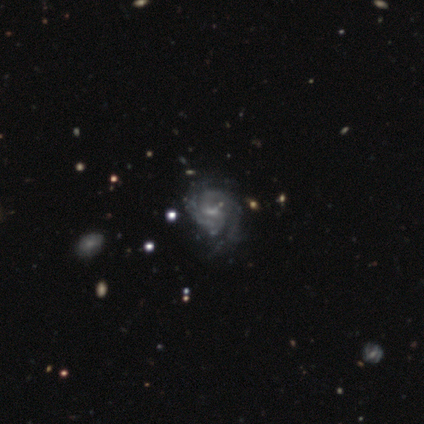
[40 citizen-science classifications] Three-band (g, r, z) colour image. It shows a featured or disk galaxy (85%) with a weak bar (41%), 2 (56%) medium (62%) spiral arms (94%) and a small central bulge (50%). Merging: none (26%).